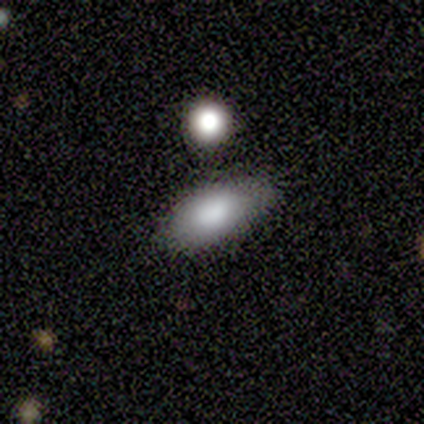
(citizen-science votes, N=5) Overall: smooth (80%). How rounded: in between (75%). Merging: none (50%; minor disturbance 25%).